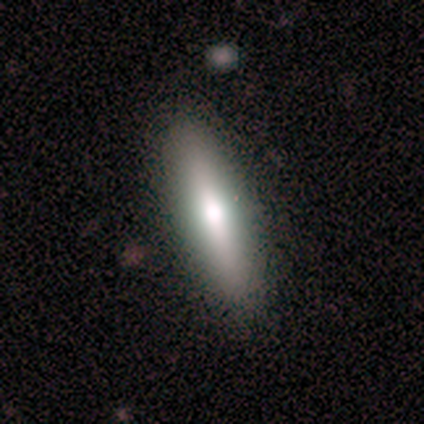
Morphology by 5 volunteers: smooth_or_featured: smooth (p=0.60) [alt: featured or disk p=0.40]
how_rounded: cigar-shaped (p=0.67) [alt: in between p=0.33]
merging: none (p=1.00)